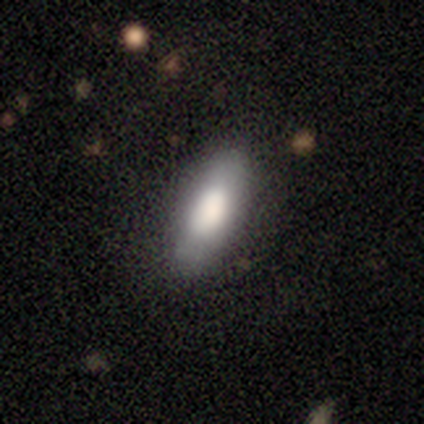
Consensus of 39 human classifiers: Smooth or featured: smooth — 74% (featured or disk — 23%)
How rounded: in between — 86% (cigar-shaped — 10%)
Merging: none — 76% (minor disturbance — 18%)